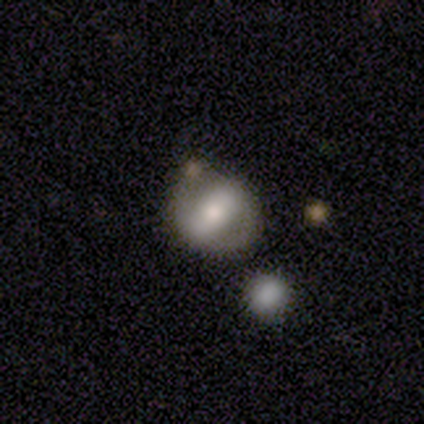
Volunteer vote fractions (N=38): Overall: featured or disk (66%; smooth 29%). Edge-on disk: no (92%). Bar: strong (70%). Spiral arms: yes (57%; no 43%). Spiral arm count: 2 (92%). Spiral winding: medium (38%, tied with loose). Bulge size: moderate (70%). Merging: none (72%).